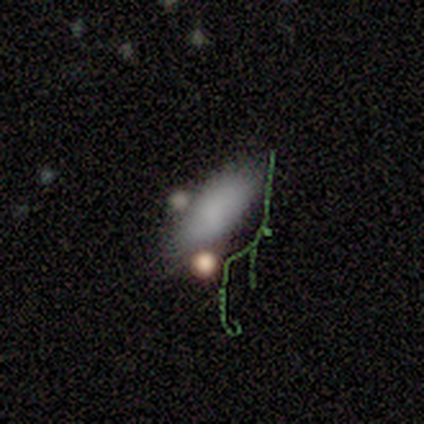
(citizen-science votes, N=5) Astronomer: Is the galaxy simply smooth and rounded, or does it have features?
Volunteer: smooth — 100%.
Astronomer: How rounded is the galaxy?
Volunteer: in between — 80%.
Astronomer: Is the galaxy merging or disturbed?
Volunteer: minor disturbance — 60% (runner-up: none, 40%).